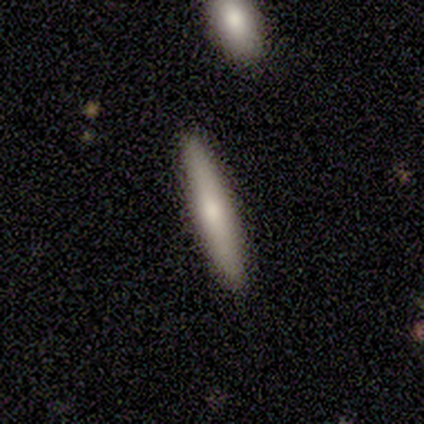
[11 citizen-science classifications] Overall: smooth (73%). How rounded: cigar-shaped (88%). Merging: none (80%).